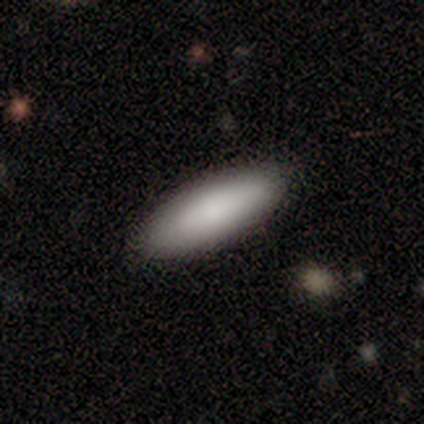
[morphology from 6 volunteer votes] Overall: smooth (100%). How rounded: in between (83%). Merging: none (100%).